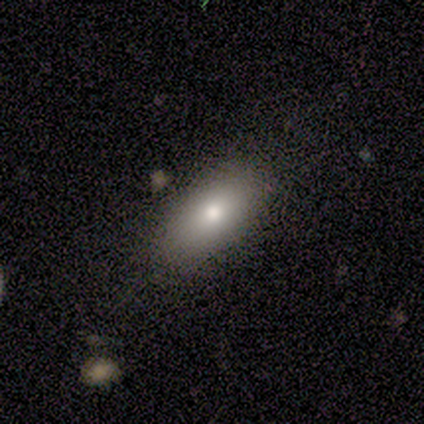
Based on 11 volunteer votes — smooth_or_featured: smooth (p=0.82) [alt: featured or disk p=0.09]
how_rounded: in between (p=1.00)
merging: none (p=0.80) [alt: minor disturbance p=0.10]